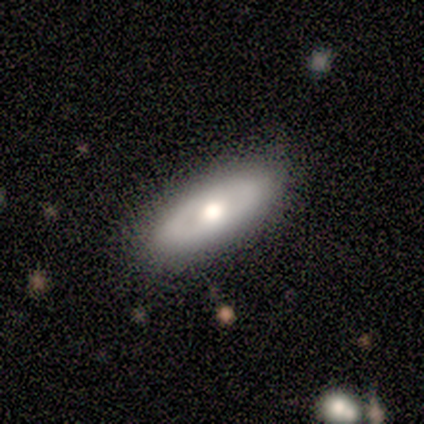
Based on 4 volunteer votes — Q: Smooth or featured?
A: featured or disk (50%); runner-up: smooth (25%)
Q: Edge-on disk?
A: yes (50%); tied with: no (50%)
Q: Edge-on bulge?
A: rounded (100%)
Q: Merging?
A: none (100%)